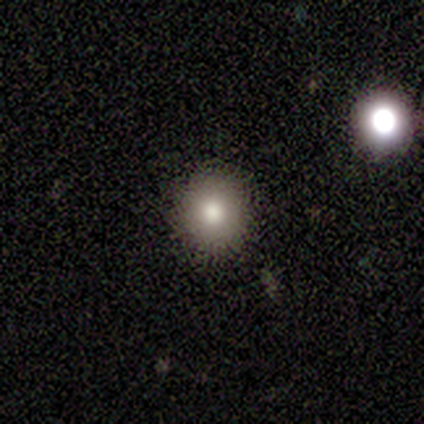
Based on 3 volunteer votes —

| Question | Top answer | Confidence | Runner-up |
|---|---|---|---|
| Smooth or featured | smooth | 100% | — |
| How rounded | round | 100% | — |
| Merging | none | 100% | — |